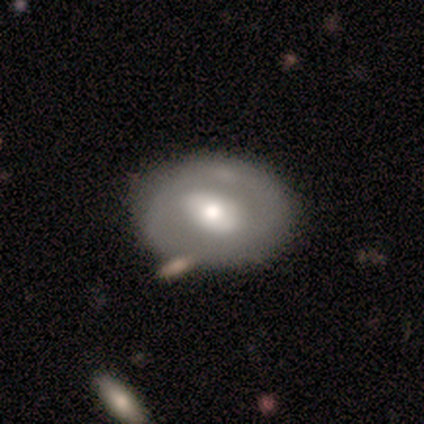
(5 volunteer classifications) This is likely a featured or disk galaxy (60%). It is likely not viewed edge-on (67%). Bar: possibly strong (50%, tied with no). Spiral arm pattern: clearly no (100%). Central bulge: clearly large (100%). Merging: marginally none (40%).